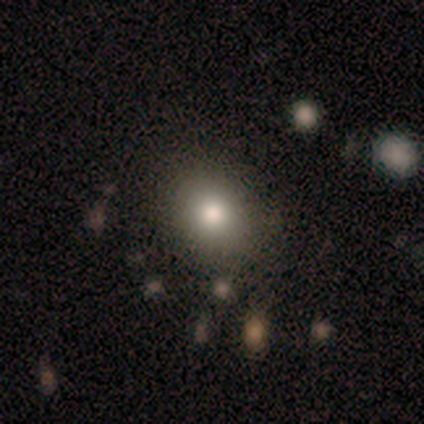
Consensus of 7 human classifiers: smooth_or_featured: smooth (p=0.86) [alt: featured or disk p=0.14]
how_rounded: round (p=0.67) [alt: in between p=0.33]
merging: none (p=1.00)